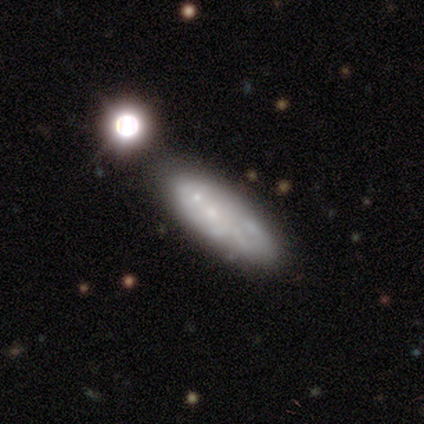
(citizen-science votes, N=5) A smooth galaxy with no disk features (80%) that is in between round and cigar-shaped (100%). Merging: none (60%).